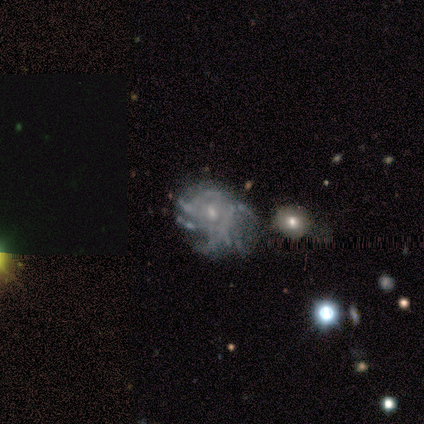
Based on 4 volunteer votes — Volunteers were most divided on "spiral winding" (3-way tie): tight: 33%, medium: 33%, loose: 33%. More confident: smooth or featured — featured or disk (100%); edge-on disk — no (100%); spiral arm count — can't tell (100%); spiral arms — yes (75%); merging — major disturbance (75%); bar — no (50%); bulge size — small (50%).